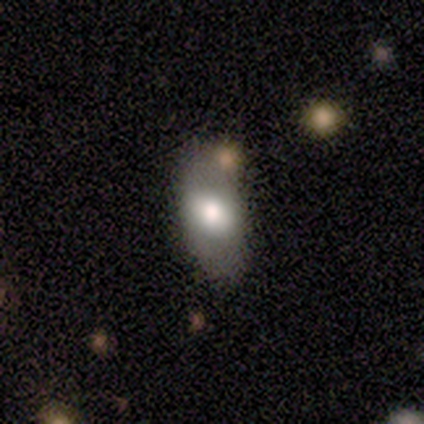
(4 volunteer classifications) Smooth or featured? smooth (100%)
How rounded? in between (100%)
Merging? none (75%)